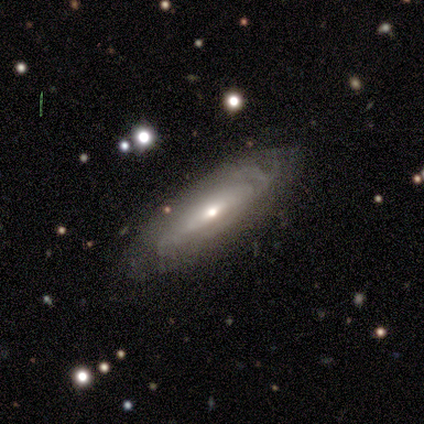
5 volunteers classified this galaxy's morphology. This appears to be a featured or disk galaxy (100%) with no bar (100%), medium (67%) spiral arms (75%) and a moderate central bulge (50%, tied with small). Merging: none (80%).